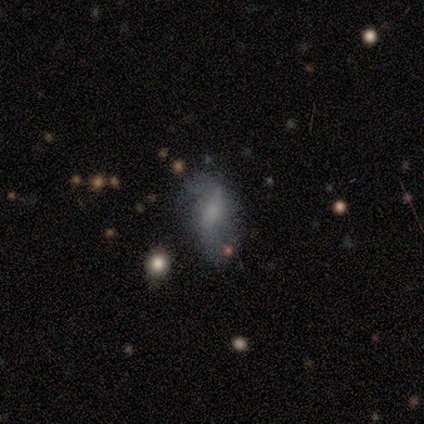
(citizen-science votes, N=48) A featured or disk galaxy (58%) with a weak bar (46%), 2 (94%) loose (65%) spiral arms (61%) and a small central bulge (46%).

Vote fractions:
- Smooth or featured? featured or disk: 58% / smooth: 35% / star or artifact: 6%
- Edge-on disk? no: 100% / yes: 0%
- Bar? weak: 46% / no: 36% / strong: 18%
- Spiral arms? yes: 61% / no: 39%
- Spiral winding? loose: 65% / medium: 24% / tight: 12%
- Spiral arm count? 2: 94% / can't tell: 6% / 1: 0% / 3: 0% / 4: 0% / more than 4: 0%
- Bulge size? small: 46% / none: 32% / moderate: 11% / large: 7% / dominant: 4%
- Merging? none: 40% / major disturbance: 29% / minor disturbance: 27% / merger: 4%